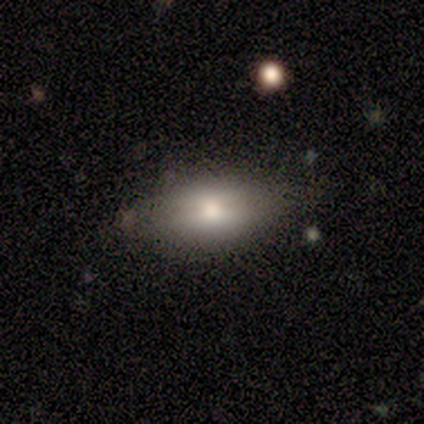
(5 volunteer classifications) Smooth or featured: smooth — 60% (featured or disk — 40%)
How rounded: in between — 100%
Merging: none — 80% (minor disturbance — 20%)